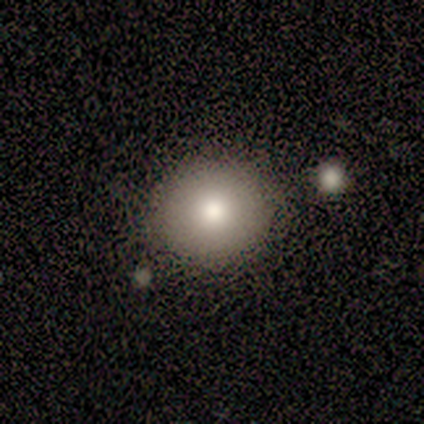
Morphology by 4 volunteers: This appears to be a smooth galaxy with no disk features (75%) that is round (67%). Merging: none (100%).